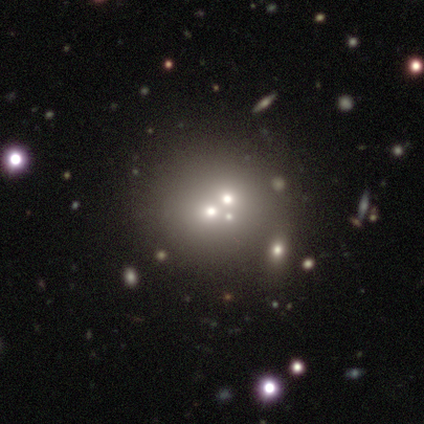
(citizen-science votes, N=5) Volunteers were most divided on "smooth or featured": smooth: 60%, featured or disk: 20%, star or artifact: 20%. More confident: how rounded — round (100%); merging — none (75%).